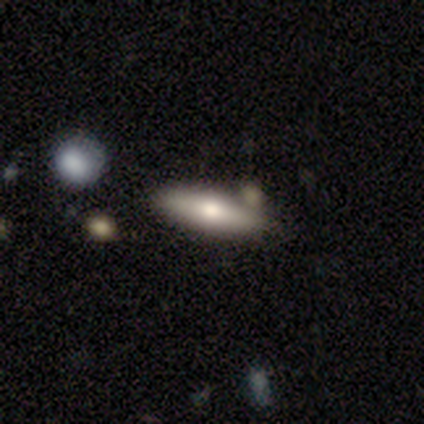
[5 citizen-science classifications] featured or disk 60%, smooth 40%, star or artifact 0%. Down the decision tree: edge-on disk — yes (100%); edge-on bulge — rounded (100%); merging — none (60%).